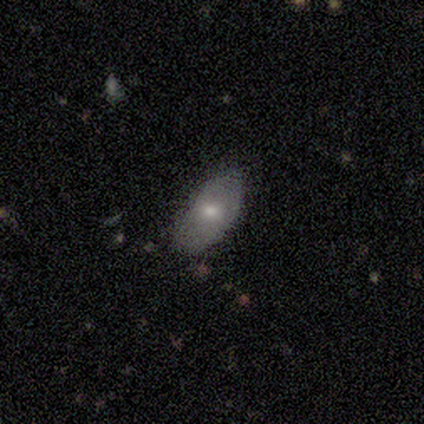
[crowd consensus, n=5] Smooth or featured? 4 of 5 (80%) said smooth. How rounded? 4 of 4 (100%) said in between. Merging? 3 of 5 (60%) said minor disturbance.